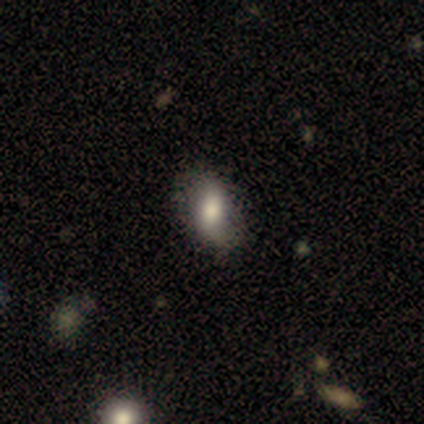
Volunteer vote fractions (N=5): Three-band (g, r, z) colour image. It shows a featured or disk galaxy (60%) with a strong bar (67%), 2 (67%) tight (67%) spiral arms (100%) and a moderate central bulge (67%). Merging: none (75%).